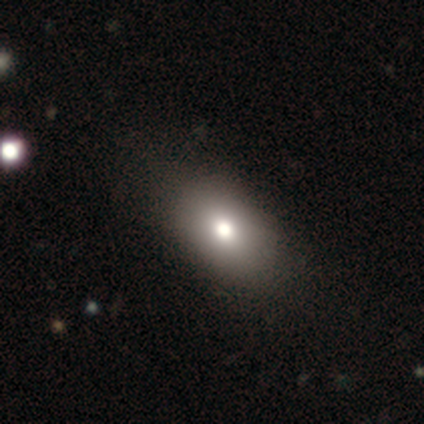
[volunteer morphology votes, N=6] smooth_or_featured: smooth (p=0.83) [alt: featured or disk p=0.17]
how_rounded: in between (p=1.00)
merging: none (p=0.83) [alt: minor disturbance p=0.17]